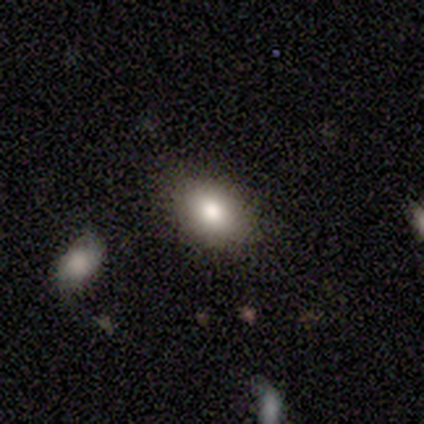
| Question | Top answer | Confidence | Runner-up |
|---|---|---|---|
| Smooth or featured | smooth | 80% | featured or disk (14%) |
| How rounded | in between | 79% | round (21%) |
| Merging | none | 85% | minor disturbance (11%) |